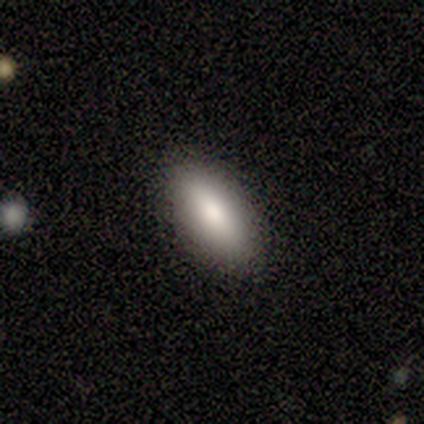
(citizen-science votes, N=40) Smooth or featured?
  - smooth: 90% *
  - star or artifact: 8%
  - featured or disk: 2%
How rounded?
  - in between: 81% *
  - cigar-shaped: 17%
  - round: 3%
Merging?
  - none: 89% *
  - minor disturbance: 11%
  - major disturbance: 0%
  - merger: 0%